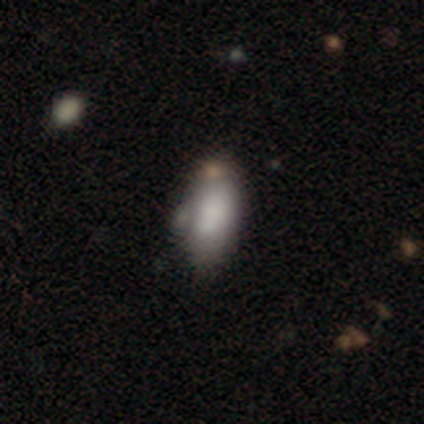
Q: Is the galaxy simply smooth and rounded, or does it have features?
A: smooth — 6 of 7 (86%).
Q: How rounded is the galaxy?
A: in between — 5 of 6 (83%).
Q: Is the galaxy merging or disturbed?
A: none — 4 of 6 (67%).